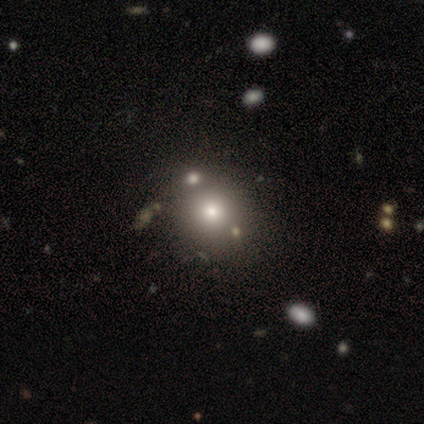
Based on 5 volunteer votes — Smooth or featured? 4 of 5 (80%) said smooth. How rounded? 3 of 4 (75%) said round. Merging? 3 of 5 (60%) said none.